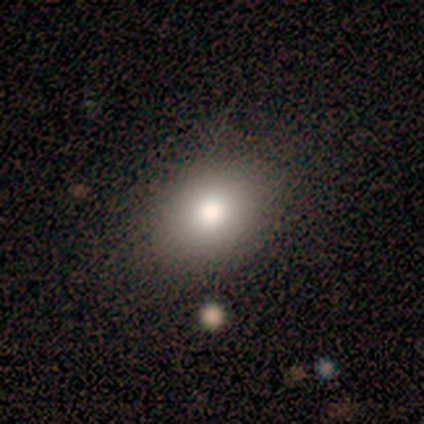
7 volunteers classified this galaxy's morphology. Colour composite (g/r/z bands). It shows a smooth galaxy with no disk features (100%) that is in between round and cigar-shaped (71%). Merging: none (100%).